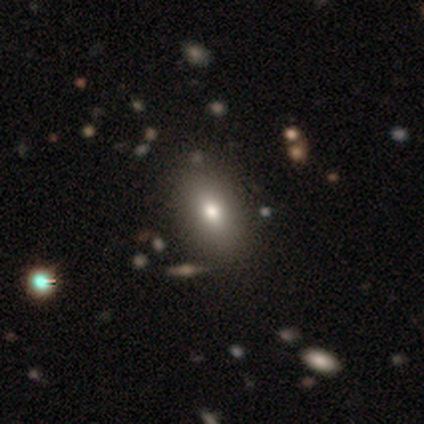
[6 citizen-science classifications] smooth 100%, featured or disk 0%, star or artifact 0%. Down the decision tree: how rounded — in between (83%); merging — none (100%).